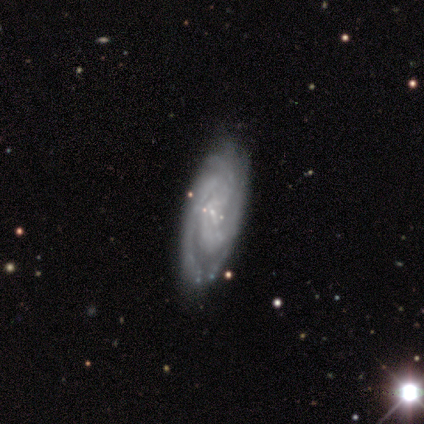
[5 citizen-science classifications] Smooth or featured? featured or disk (100%)
Edge-on disk? no (100%)
Bar? no (80%)
Spiral arms? yes (100%)
Spiral winding? tight (60%)
Spiral arm count? 2 (60%)
Bulge size? none (60%)
Merging? none (100%)